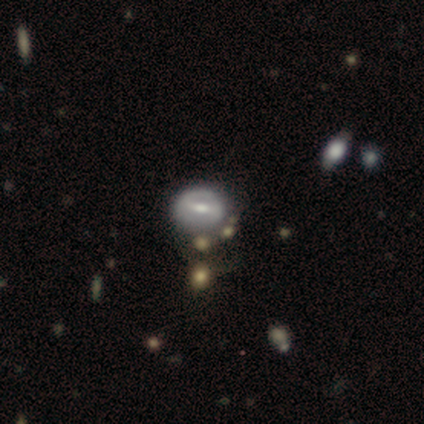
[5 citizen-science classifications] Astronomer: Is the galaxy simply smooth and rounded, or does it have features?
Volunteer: featured or disk — 60%.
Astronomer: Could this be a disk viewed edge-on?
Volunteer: no — 100%.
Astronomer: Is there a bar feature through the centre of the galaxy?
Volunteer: weak — 67%.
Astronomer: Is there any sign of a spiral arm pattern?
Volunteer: no — 100%.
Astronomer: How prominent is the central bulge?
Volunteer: moderate — 67%.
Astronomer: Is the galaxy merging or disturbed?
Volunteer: none — 25%, tied with minor disturbance, major disturbance and merger at 25%.